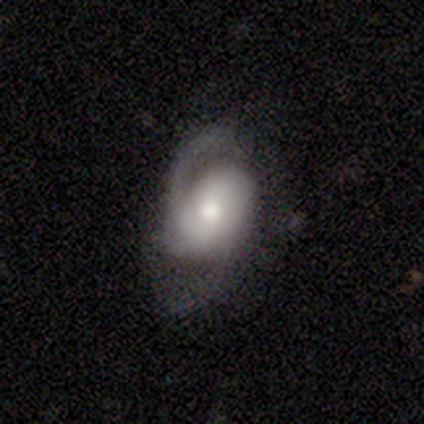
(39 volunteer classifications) Smooth or featured? 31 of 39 (79%) said featured or disk. Edge-on disk? 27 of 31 (87%) said no. Bar? 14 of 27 (52%) said no. Spiral arms? 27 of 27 (100%) said yes. Spiral winding? 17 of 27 (63%) said medium. Spiral arm count? 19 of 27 (70%) said 2. Bulge size? 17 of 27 (63%) said moderate. Merging? 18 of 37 (49%) said none.